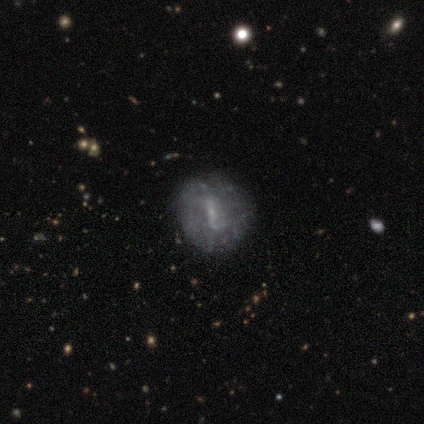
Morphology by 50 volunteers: featured or disk 74%, smooth 18%, star or artifact 8%. Down the decision tree: edge-on disk — no (100%); bar — weak (43%); spiral arms — no (57%); bulge size — small (70%); merging — none (80%).